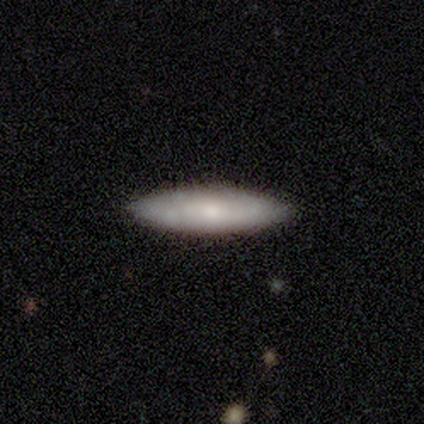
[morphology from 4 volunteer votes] Volunteers were most divided on "smooth or featured" (2-way tie): smooth: 50%, featured or disk: 50%, star or artifact: 0%. More confident: how rounded — cigar-shaped (100%); merging — none (100%).